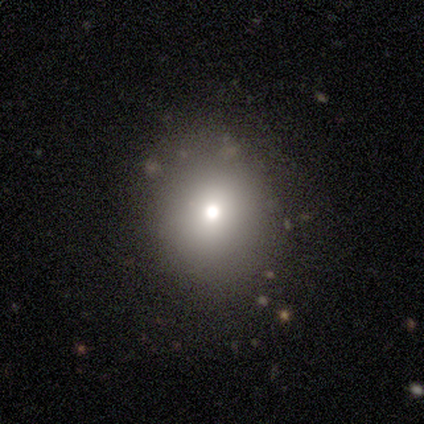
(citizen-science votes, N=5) A smooth galaxy with no disk features (80%) that is round (100%).

Vote fractions:
- Smooth or featured? smooth: 80% / star or artifact: 20% / featured or disk: 0%
- How rounded? round: 100% / in between: 0% / cigar-shaped: 0%
- Merging? none: 75% / minor disturbance: 25% / major disturbance: 0% / merger: 0%